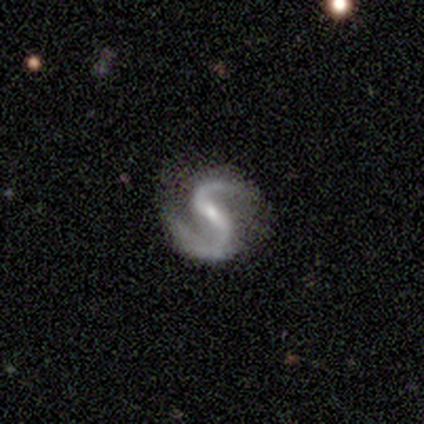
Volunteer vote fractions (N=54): smooth_or_featured: featured or disk (p=0.94) [alt: star or artifact p=0.04]
disk_edge_on: no (p=1.00)
bar: strong (p=0.41) [tied with: weak p=0.41]
has_spiral_arms: yes (p=0.98) [alt: no p=0.02]
spiral_winding: medium (p=0.60) [alt: loose p=0.32]
spiral_arm_count: 2 (p=0.98) [alt: 1 p=0.02]
bulge_size: small (p=0.71) [alt: moderate p=0.24]
merging: none (p=0.69) [alt: minor disturbance p=0.23]